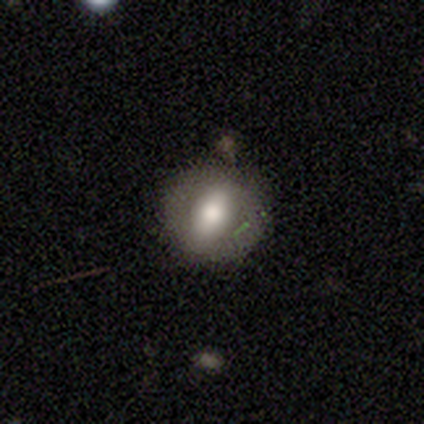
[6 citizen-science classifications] This is likely a smooth galaxy (67%). How rounded: possibly round (50%, tied with in between). Merging: clearly none (100%).